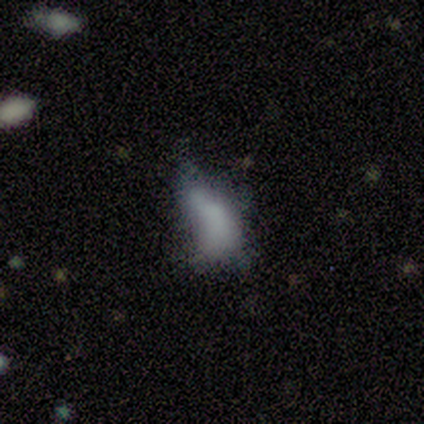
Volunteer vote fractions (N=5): Smooth or featured?
  - smooth: 40% * (tied)
  - featured or disk: 40% * (tied)
  - star or artifact: 20%
How rounded?
  - in between: 100% *
  - round: 0%
  - cigar-shaped: 0%
Merging?
  - none: 50% * (tied)
  - major disturbance: 50% * (tied)
  - minor disturbance: 0%
  - merger: 0%